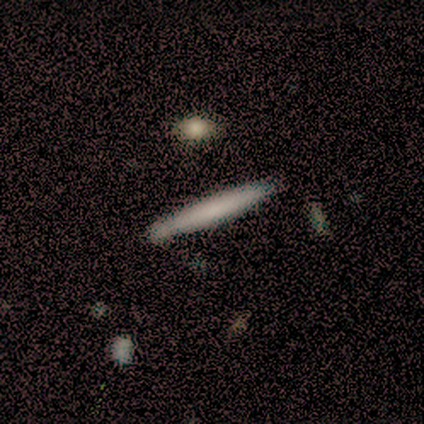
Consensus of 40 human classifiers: A smooth galaxy with no disk features (68%) that is cigar-shaped (100%). Merging: none (50%).